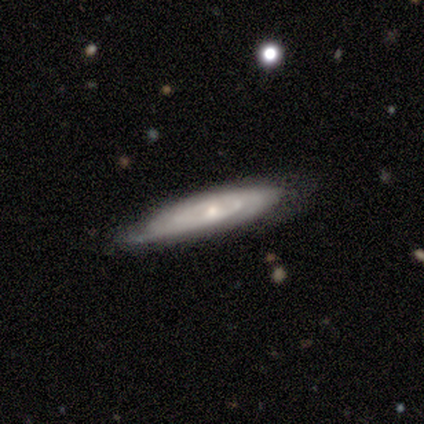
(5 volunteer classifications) Smooth or featured? 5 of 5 (100%) said featured or disk. Edge-on disk? 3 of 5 (60%) said no. Bar? 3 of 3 (100%) said no. Spiral arms? 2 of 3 (67%) said yes. Spiral winding? 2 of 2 (100%) said tight. Spiral arm count? 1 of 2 (50%, tied with can't tell) said 1. Bulge size? 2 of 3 (67%) said moderate. Merging? 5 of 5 (100%) said none.